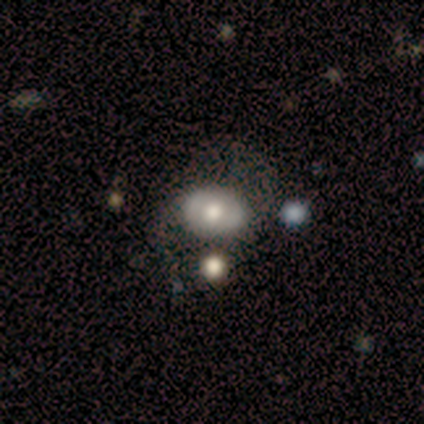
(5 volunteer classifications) A featured or disk galaxy (60%) with a strong bar (33%, tied with weak and no), 2 (50%, tied with 4) medium (50%, tied with loose) spiral arms (67%) and a moderate central bulge (67%). Merging: none (40%, tied with major disturbance).